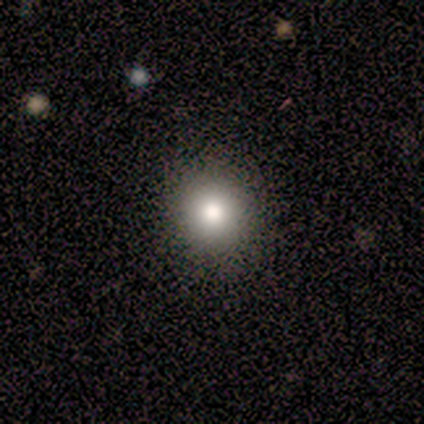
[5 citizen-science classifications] Morphology: type=smooth (60%); roundness=round (67%); merging=none (100%).